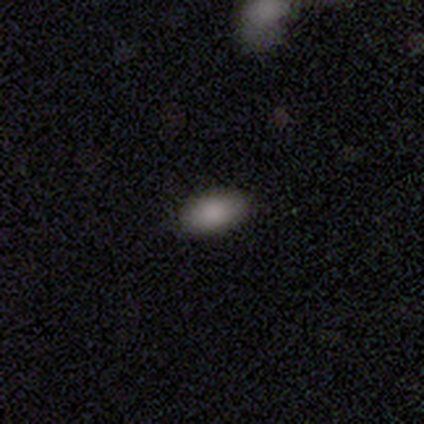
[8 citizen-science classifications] Smooth or featured: smooth — 75% (featured or disk — 12%)
How rounded: in between — 100%
Merging: none — 86% (major disturbance — 14%)